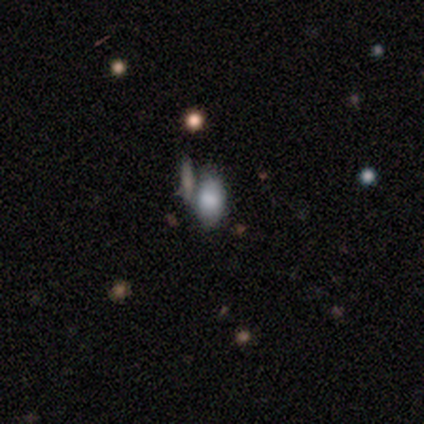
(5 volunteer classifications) This appears to be a smooth galaxy with no disk features (40%, tied with star or artifact) that is in between round and cigar-shaped (100%). Merging: merger (67%).